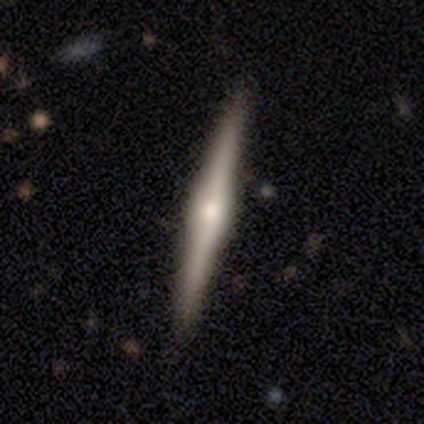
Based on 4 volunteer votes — Smooth or featured: featured or disk — 75% (smooth — 25%)
Edge-on disk: yes — 100%
Edge-on bulge: rounded — 67% (boxy — 33%)
Merging: none — 75% (minor disturbance — 25%)